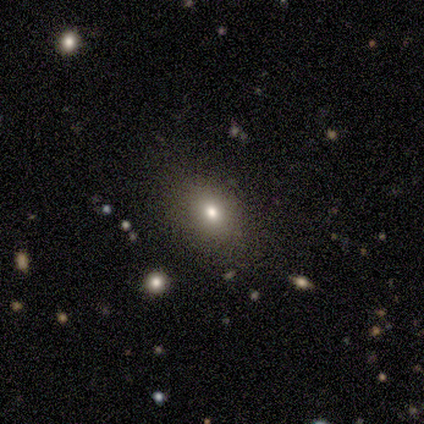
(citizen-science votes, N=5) smooth-or-featured: smooth: 80% | star or artifact: 20% | featured or disk: 0%
  how-rounded: in between: 50% | round: 25% | cigar-shaped: 25%
  merging: none: 100% | minor disturbance: 0% | major disturbance: 0% | merger: 0%